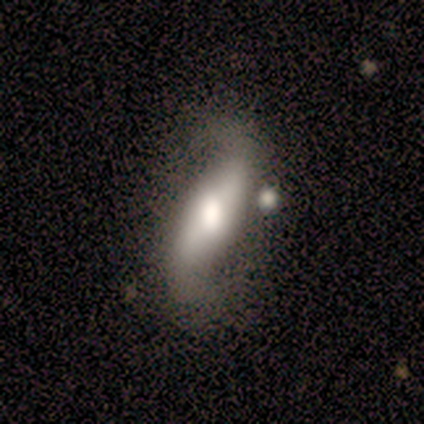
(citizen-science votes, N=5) smooth 60%, featured or disk 40%, star or artifact 0%. Down the decision tree: how rounded — in between (67%); merging — none (40%, tied with minor disturbance).